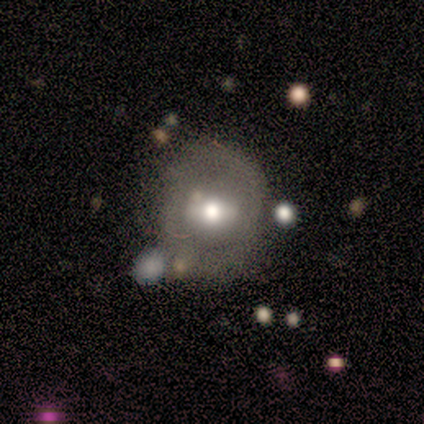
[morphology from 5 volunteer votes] Q: Smooth or featured?
A: featured or disk (80%); runner-up: smooth (20%)
Q: Edge-on disk?
A: no (100%)
Q: Bar?
A: strong (50%); runner-up: weak (25%)
Q: Spiral arms?
A: no (75%); runner-up: yes (25%)
Q: Bulge size?
A: moderate (50%); tied with: small (50%)
Q: Merging?
A: none (60%); runner-up: minor disturbance (20%)